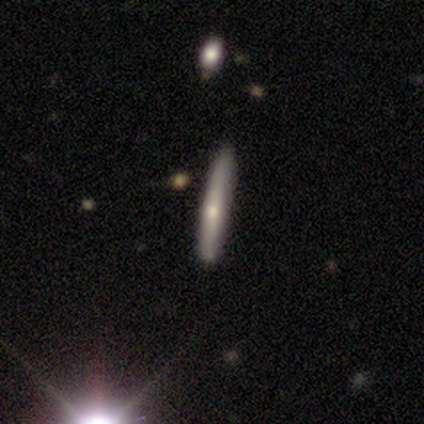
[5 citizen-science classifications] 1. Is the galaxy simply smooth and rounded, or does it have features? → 60% smooth, 40% featured or disk, 0% star or artifact.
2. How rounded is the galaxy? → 100% cigar-shaped, 0% round, 0% in between.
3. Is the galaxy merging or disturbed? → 100% none, 0% minor disturbance, 0% major disturbance, 0% merger.